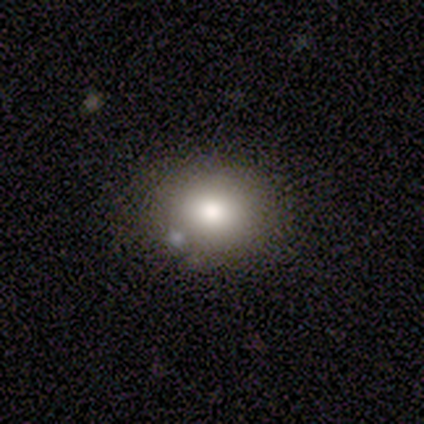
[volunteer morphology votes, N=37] smooth-or-featured: smooth: 78% | star or artifact: 16% | featured or disk: 5%
  how-rounded: round: 69% | in between: 31% | cigar-shaped: 0%
  merging: none: 84% | merger: 10% | minor disturbance: 6% | major disturbance: 0%